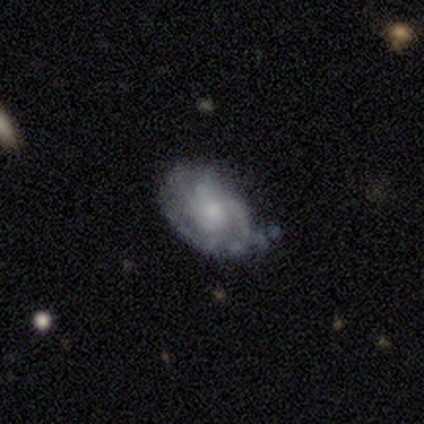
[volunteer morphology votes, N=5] featured or disk 100%, smooth 0%, star or artifact 0%. Down the decision tree: edge-on disk — no (100%); bar — no (60%); spiral arms — yes (100%); spiral arm count — 3 (40%, tied with can't tell); spiral winding — medium (60%); bulge size — small (60%); merging — minor disturbance (60%).